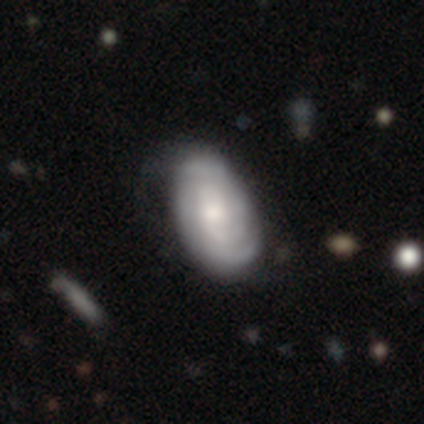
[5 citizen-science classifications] A featured or disk galaxy (80%) with a weak bar (50%, tied with no), 2 (100%) tight (67%) spiral arms (75%) and a small central bulge (50%).

Vote fractions:
- Smooth or featured? featured or disk: 80% / smooth: 20% / star or artifact: 0%
- Edge-on disk? no: 100% / yes: 0%
- Bar? weak: 50% (tied) / no: 50% (tied) / strong: 0%
- Spiral arms? yes: 75% / no: 25%
- Spiral winding? tight: 67% / loose: 33% / medium: 0%
- Spiral arm count? 2: 100% / 1: 0% / 3: 0% / 4: 0% / more than 4: 0% / can't tell: 0%
- Bulge size? small: 50% / large: 25% / moderate: 25% / dominant: 0% / none: 0%
- Merging? none: 100% / minor disturbance: 0% / major disturbance: 0% / merger: 0%